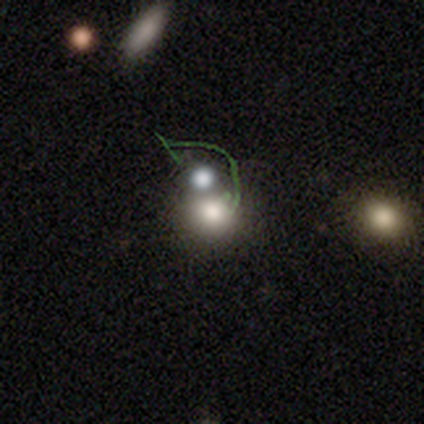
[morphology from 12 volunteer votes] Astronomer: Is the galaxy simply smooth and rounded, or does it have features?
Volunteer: smooth — 83%.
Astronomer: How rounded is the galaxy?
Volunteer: round — 70%.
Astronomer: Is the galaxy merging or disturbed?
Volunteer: none — 55% (runner-up: merger, 36%).